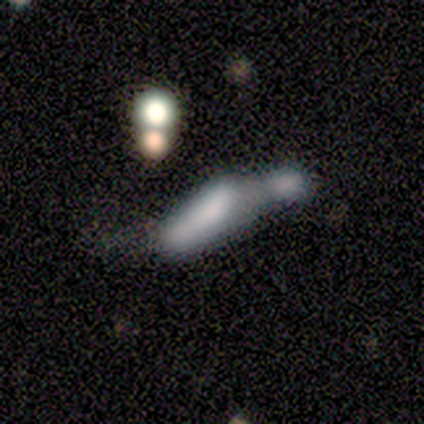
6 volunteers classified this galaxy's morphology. Overall: smooth (83%). How rounded: cigar-shaped (80%). Merging: merger (80%).